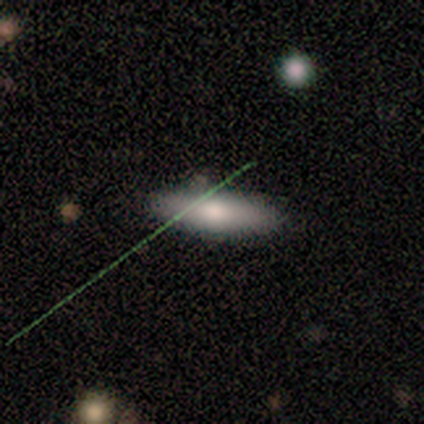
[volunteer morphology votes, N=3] Smooth or featured: smooth — 100%
How rounded: in between — 67% (cigar-shaped — 33%)
Merging: none — 67% (minor disturbance — 33%)